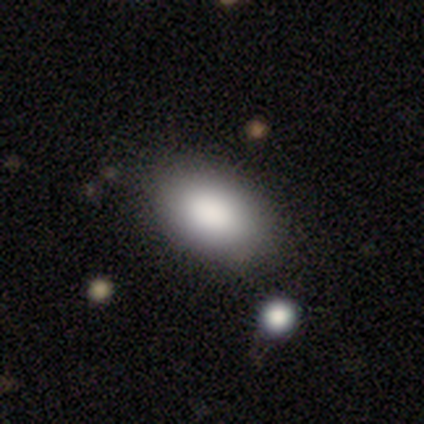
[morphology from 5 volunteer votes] Overall: smooth (80%). How rounded: in between (100%). Merging: none (100%).